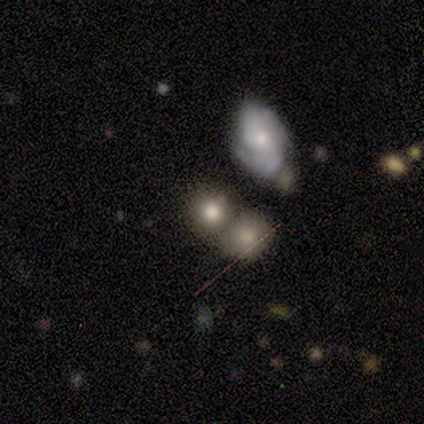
A smooth galaxy with no disk features (75%) that is round (100%).

Vote fractions:
- Smooth or featured? smooth: 75% / featured or disk: 25% / star or artifact: 0%
- How rounded? round: 100% / in between: 0% / cigar-shaped: 0%
- Merging? none: 100% / minor disturbance: 0% / major disturbance: 0% / merger: 0%